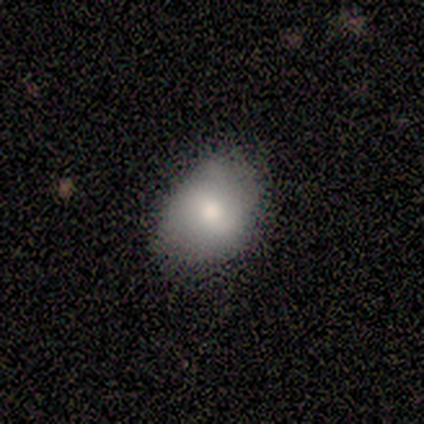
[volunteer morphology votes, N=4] Overall: smooth (100%). How rounded: in between (100%). Merging: none (75%).